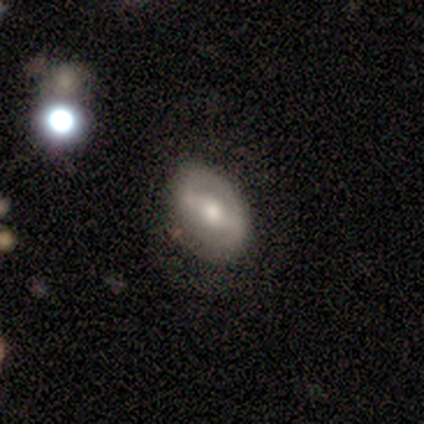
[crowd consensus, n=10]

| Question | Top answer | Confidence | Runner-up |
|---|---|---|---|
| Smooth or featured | featured or disk | 60% | smooth (40%) |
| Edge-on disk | no | 100% | — |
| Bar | strong | 50% | tied: weak (50%) |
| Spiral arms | yes | 50% | tied: no (50%) |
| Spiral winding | medium | 67% | loose (33%) |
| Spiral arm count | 2 | 100% | — |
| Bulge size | moderate | 50% | small (33%) |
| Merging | none | 70% | minor disturbance (30%) |